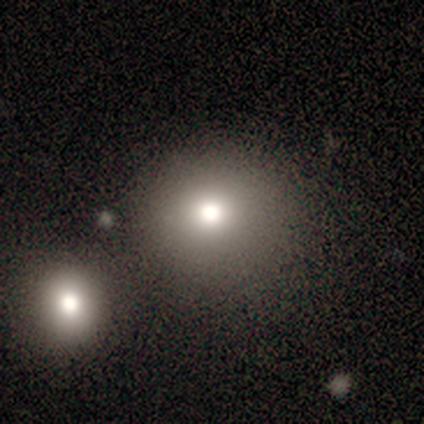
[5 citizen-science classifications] This is clearly a smooth galaxy (80%). How rounded: likely round (75%). Merging: clearly none (80%).